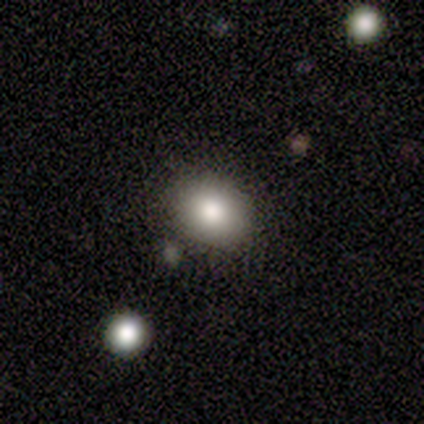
Morphology: type=smooth (100%); roundness=round (50%, tied with in between); merging=none (100%).